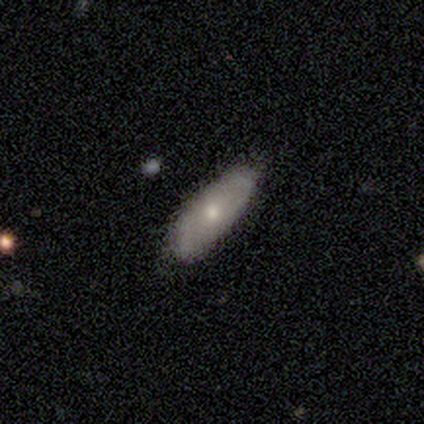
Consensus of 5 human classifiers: Volunteers were most divided on "merging" (2-way tie): none: 50%, minor disturbance: 50%, major disturbance: 0%, merger: 0%. More confident: how rounded — in between (67%); smooth or featured — smooth (60%).